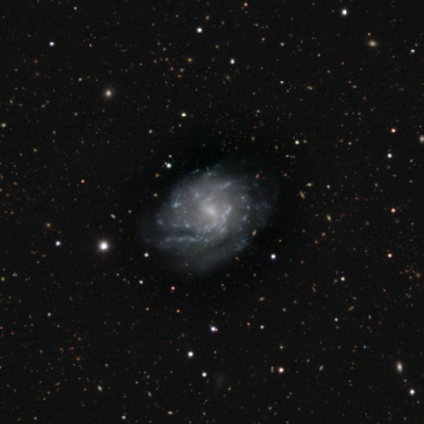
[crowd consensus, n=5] Smooth or featured: featured or disk — 80% (smooth — 20%)
Edge-on disk: no — 100%
Bar: weak — 50% (tied with no — 50%)
Spiral arms: yes — 100%
Spiral winding: tight — 50% (tied with medium — 50%)
Spiral arm count: can't tell — 50% (1 — 25%)
Bulge size: small — 75% (none — 25%)
Merging: none — 80% (minor disturbance — 20%)